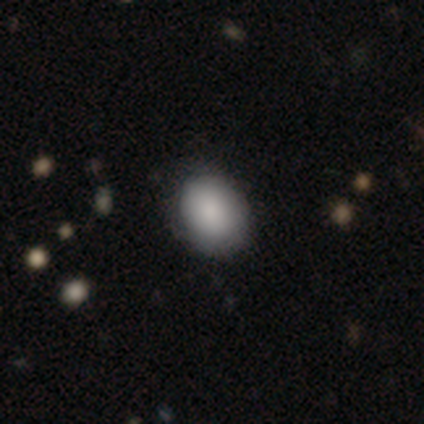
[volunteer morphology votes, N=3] This is likely a smooth galaxy (67%). How rounded: possibly round (50%, tied with in between). Merging: clearly none (100%).